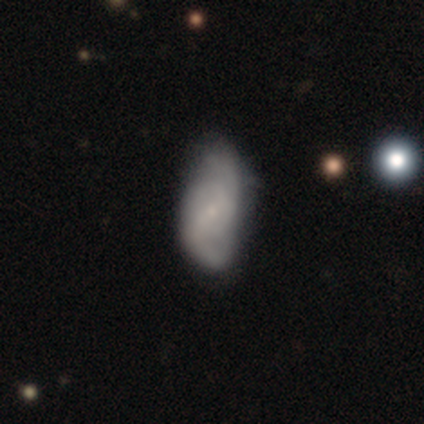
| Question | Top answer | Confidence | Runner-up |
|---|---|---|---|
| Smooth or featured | featured or disk | 62% | smooth (30%) |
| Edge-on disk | no | 100% | — |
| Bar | no | 48% | weak (36%) |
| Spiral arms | yes | 92% | no (8%) |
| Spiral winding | tight | 48% | medium (30%) |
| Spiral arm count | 2 | 74% | 3 (13%) |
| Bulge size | small | 88% | large (4%) |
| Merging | none | 59% | minor disturbance (41%) |